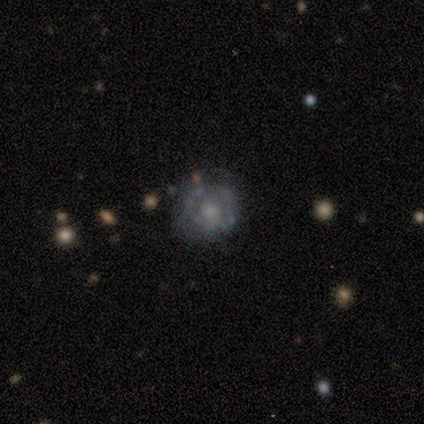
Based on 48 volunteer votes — Smooth or featured? 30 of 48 (62%) said featured or disk. Edge-on disk? 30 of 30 (100%) said no. Bar? 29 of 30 (97%) said no. Spiral arms? 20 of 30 (67%) said no. Bulge size? 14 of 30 (47%) said moderate. Merging? 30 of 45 (67%) said none.